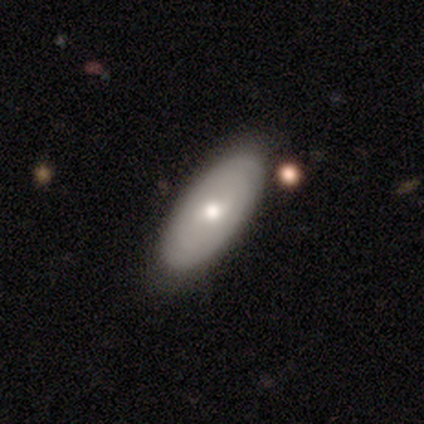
A smooth galaxy with no disk features (59%) that is in between round and cigar-shaped (87%). Merging: none (77%).